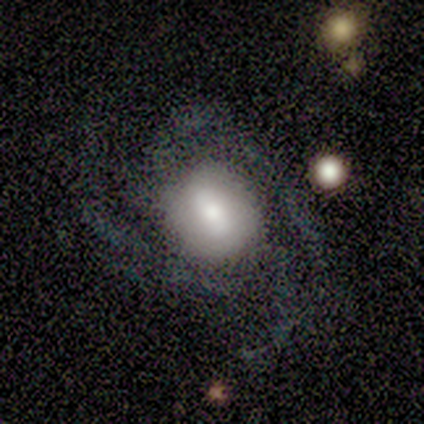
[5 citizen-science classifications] A featured or disk galaxy (100%) with a weak bar (80%), 2 (40%) medium (60%) spiral arms (100%) and a large central bulge (40%, tied with moderate).

Vote fractions:
- Smooth or featured? featured or disk: 100% / smooth: 0% / star or artifact: 0%
- Edge-on disk? no: 100% / yes: 0%
- Bar? weak: 80% / no: 20% / strong: 0%
- Spiral arms? yes: 100% / no: 0%
- Spiral winding? medium: 60% / tight: 40% / loose: 0%
- Spiral arm count? 2: 40% / 3: 20% / 4: 20% / more than 4: 20% / 1: 0% / can't tell: 0%
- Bulge size? large: 40% (tied) / moderate: 40% (tied) / dominant: 20% / small: 0% / none: 0%
- Merging? none: 60% / minor disturbance: 20% / major disturbance: 20% / merger: 0%